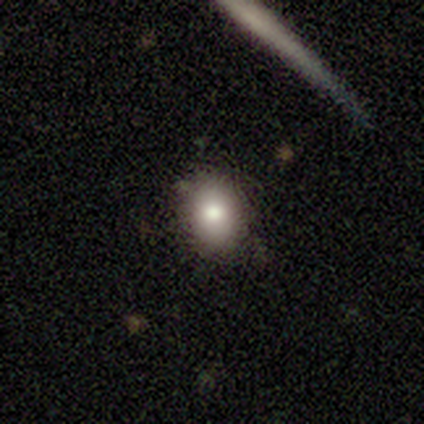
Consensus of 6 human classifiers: A smooth galaxy with no disk features (83%) that is round (60%). Merging: none (80%).